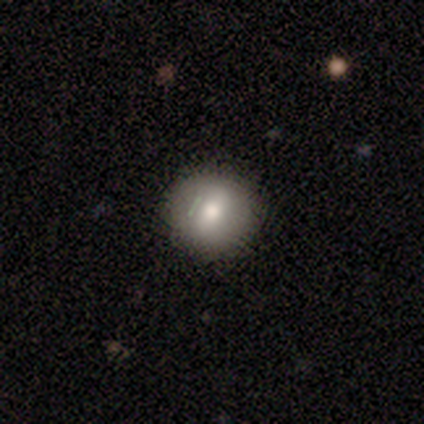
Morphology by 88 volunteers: Volunteers were most divided on "smooth or featured": smooth: 69%, featured or disk: 18%, star or artifact: 12%. More confident: how rounded — round (90%); merging — none (83%).